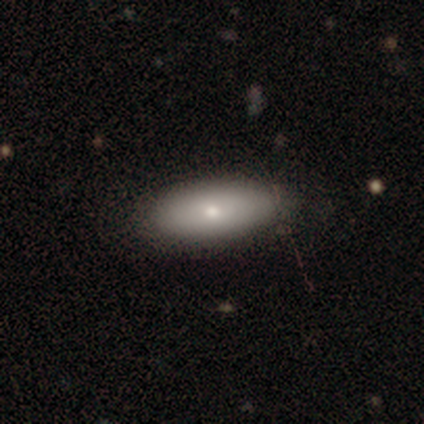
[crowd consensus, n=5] Overall: smooth (80%). How rounded: in between (75%). Merging: none (100%).